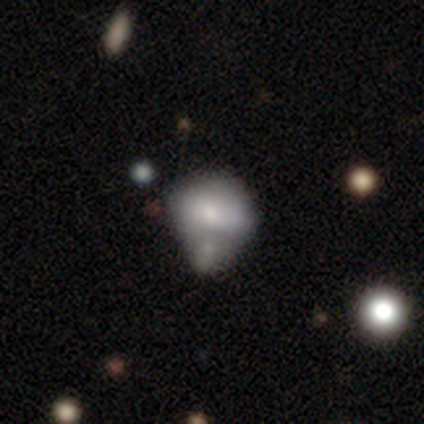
This appears to be a smooth galaxy with no disk features (64%) that is in between round and cigar-shaped (78%). Merging: merger (61%).